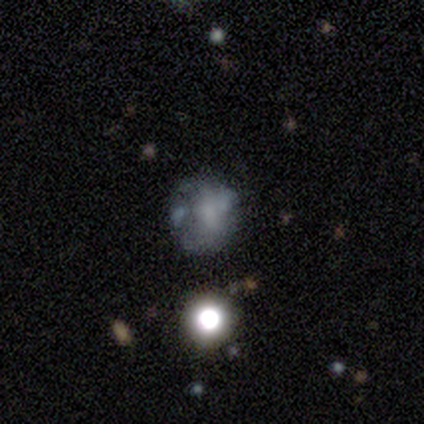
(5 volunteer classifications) Volunteers were most divided on "smooth or featured": featured or disk: 60%, smooth: 40%, star or artifact: 0%. More confident: edge-on disk — no (100%); bar — no (100%); bulge size — small (100%); spiral arms — no (67%); merging — none (60%).